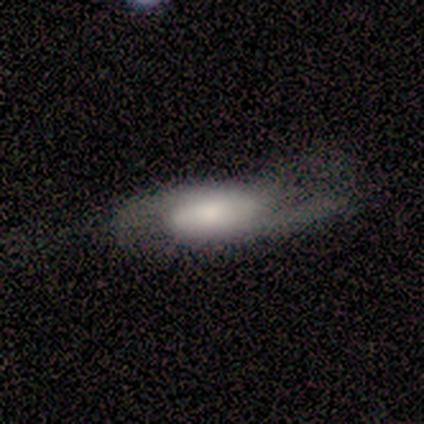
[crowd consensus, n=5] Smooth or featured? 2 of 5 (40%, tied with featured or disk) said smooth. How rounded? 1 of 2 (50%, tied with cigar-shaped) said in between. Merging? 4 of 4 (100%) said none.